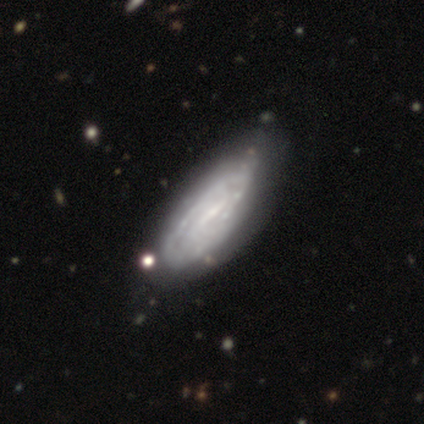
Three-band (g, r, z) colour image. It shows a featured or disk galaxy (88%) with a weak bar (73%), tight (50%) spiral arms (80%) and a small central bulge (50%). Merging: none (46%).